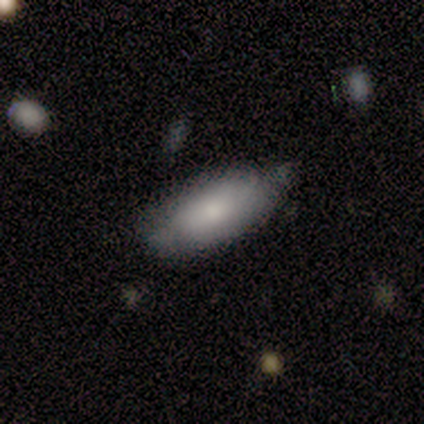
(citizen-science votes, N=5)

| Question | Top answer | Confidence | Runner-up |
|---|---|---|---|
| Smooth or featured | smooth | 80% | featured or disk (20%) |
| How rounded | in between | 75% | cigar-shaped (25%) |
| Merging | none | 80% | minor disturbance (20%) |